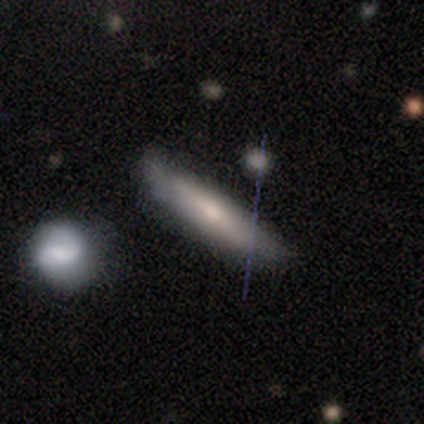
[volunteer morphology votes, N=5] A smooth galaxy with no disk features (60%) that is cigar-shaped (100%). Merging: none (40%, tied with major disturbance).